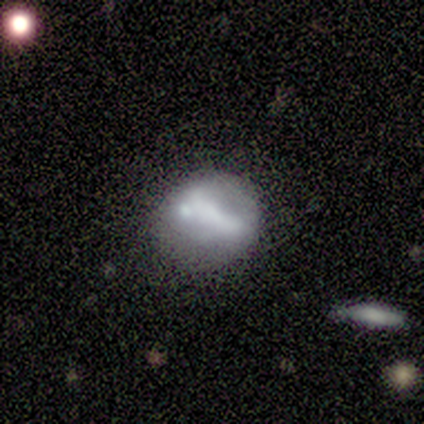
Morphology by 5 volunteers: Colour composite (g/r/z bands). It shows a featured or disk galaxy (60%) with a strong bar (67%), no spiral arms (67%) and no central bulge (67%). Merging: none (60%).